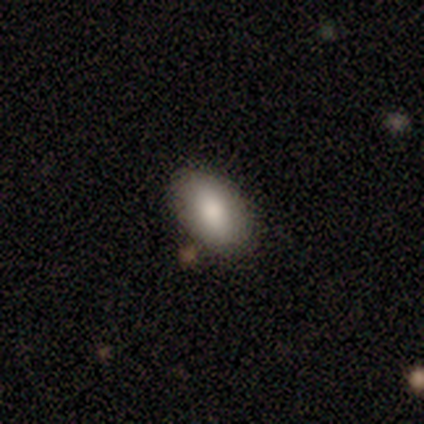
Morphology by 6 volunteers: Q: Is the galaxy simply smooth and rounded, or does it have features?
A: smooth — 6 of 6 (100%).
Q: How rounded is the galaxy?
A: in between — 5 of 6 (83%).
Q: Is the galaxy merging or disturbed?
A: none — 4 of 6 (67%).